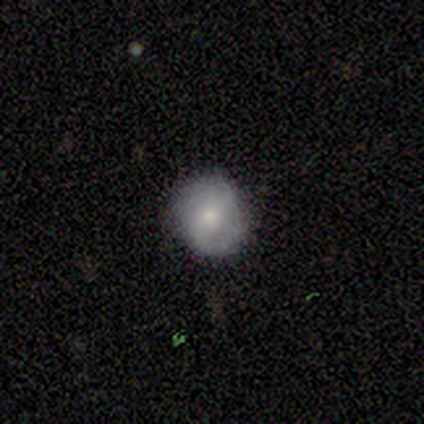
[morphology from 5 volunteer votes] A smooth galaxy with no disk features (60%) that is round (100%).

Vote fractions:
- Smooth or featured? smooth: 60% / featured or disk: 40% / star or artifact: 0%
- How rounded? round: 100% / in between: 0% / cigar-shaped: 0%
- Merging? none: 100% / minor disturbance: 0% / major disturbance: 0% / merger: 0%